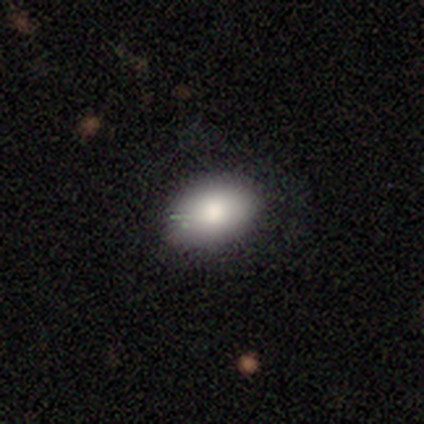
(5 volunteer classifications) Smooth or featured: smooth — 100%
How rounded: in between — 100%
Merging: none — 80% (minor disturbance — 20%)